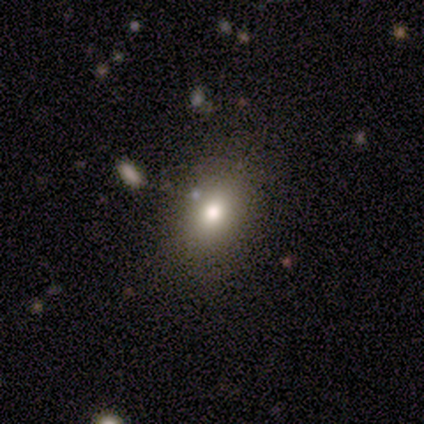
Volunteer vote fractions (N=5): Morphology: type=smooth (100%); roundness=in between (100%); merging=none (80%).